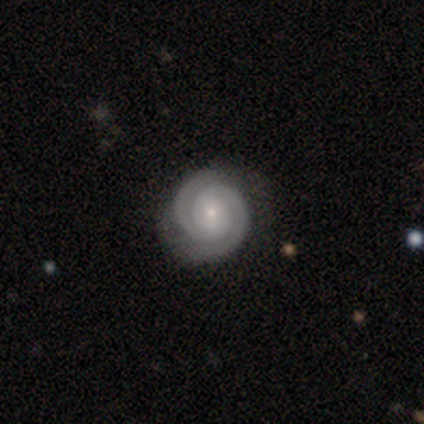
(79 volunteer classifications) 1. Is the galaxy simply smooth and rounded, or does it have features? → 95% featured or disk, 4% star or artifact, 1% smooth.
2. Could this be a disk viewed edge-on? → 99% no, 1% yes.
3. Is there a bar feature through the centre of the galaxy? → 68% no, 28% weak, 4% strong.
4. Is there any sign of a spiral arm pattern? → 99% yes, 1% no.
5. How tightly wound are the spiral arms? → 84% tight, 16% medium, 0% loose.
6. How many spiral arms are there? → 95% 2, 3% 1, 1% 3, 1% can't tell, 0% 4, 0% more than 4.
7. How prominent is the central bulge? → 66% small, 30% moderate, 3% none, 1% large, 0% dominant.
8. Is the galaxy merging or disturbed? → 45% none, 7% minor disturbance, 0% major disturbance, 0% merger.